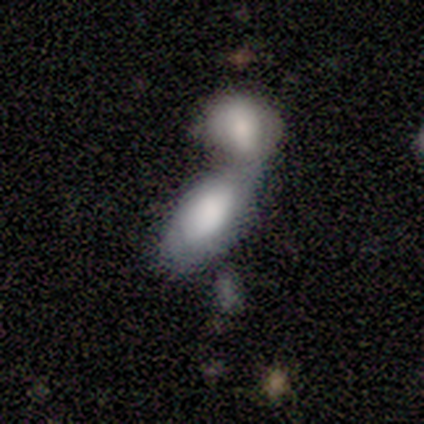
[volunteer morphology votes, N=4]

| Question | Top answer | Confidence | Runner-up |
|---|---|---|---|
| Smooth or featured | smooth | 100% | — |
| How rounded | in between | 100% | — |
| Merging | merger | 75% | none (25%) |